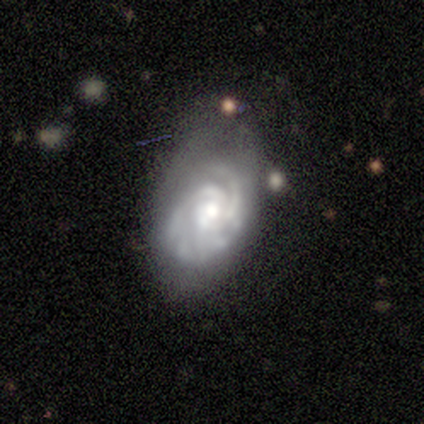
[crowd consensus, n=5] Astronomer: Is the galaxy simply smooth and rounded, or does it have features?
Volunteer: featured or disk — 100%.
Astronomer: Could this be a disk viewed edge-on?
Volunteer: no — 80%.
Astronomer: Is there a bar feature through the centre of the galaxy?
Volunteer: no — 100%.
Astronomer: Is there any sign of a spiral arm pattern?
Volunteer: yes — 100%.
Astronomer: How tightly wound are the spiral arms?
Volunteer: tight — 75%.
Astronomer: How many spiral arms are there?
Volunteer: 2 — 50%.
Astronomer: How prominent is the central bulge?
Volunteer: moderate — 50%, tied with small at 50%.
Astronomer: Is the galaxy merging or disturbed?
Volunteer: none — 60% (runner-up: minor disturbance, 40%).